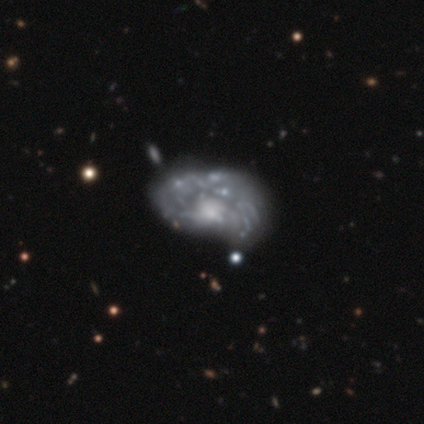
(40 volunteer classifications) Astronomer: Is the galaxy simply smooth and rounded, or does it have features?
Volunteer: featured or disk — 80%.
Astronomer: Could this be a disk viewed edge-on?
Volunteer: no — 100%.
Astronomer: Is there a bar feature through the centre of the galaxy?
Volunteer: no — 78%.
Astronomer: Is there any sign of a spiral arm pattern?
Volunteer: yes — 53% (runner-up: no, 47%).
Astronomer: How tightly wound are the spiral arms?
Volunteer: medium — 47% (runner-up: loose, 29%).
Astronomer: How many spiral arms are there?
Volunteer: can't tell — 71%.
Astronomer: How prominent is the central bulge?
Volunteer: small — 50% (runner-up: moderate, 31%).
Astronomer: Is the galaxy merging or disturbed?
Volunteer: none — 29% (runner-up: major disturbance, 21%).